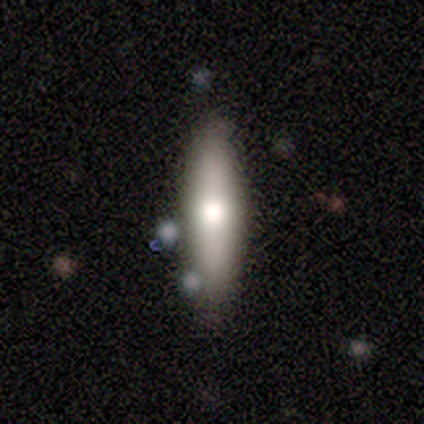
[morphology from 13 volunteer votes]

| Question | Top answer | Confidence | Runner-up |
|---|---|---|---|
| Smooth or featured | smooth | 77% | featured or disk (23%) |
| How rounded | cigar-shaped | 60% | in between (40%) |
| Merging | none | 77% | minor disturbance (23%) |